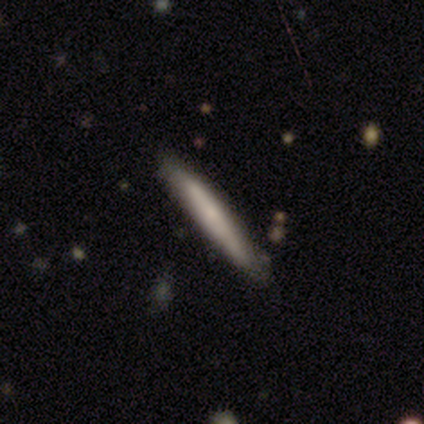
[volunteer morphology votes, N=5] smooth_or_featured: smooth (p=0.60) [alt: featured or disk p=0.40]
how_rounded: cigar-shaped (p=1.00)
merging: none (p=0.80) [alt: minor disturbance p=0.20]